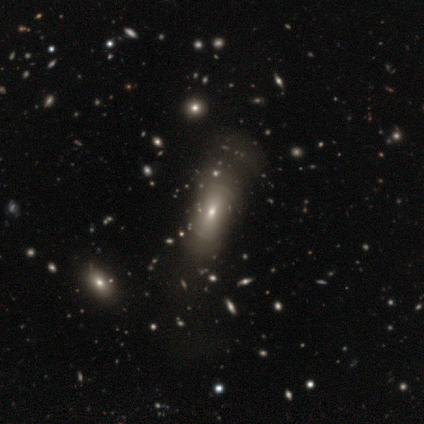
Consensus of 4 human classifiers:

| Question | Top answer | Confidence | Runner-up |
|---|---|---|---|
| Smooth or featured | smooth | 100% | — |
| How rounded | in between | 75% | round (25%) |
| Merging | none | 75% | major disturbance (25%) |